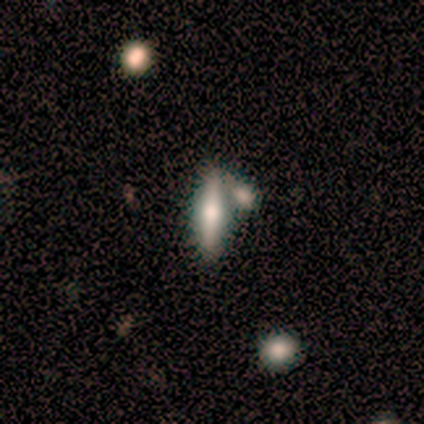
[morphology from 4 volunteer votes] Smooth or featured?
  - smooth: 50% *
  - featured or disk: 25%
  - star or artifact: 25%
How rounded?
  - cigar-shaped: 100% *
  - round: 0%
  - in between: 0%
Merging?
  - none: 100% *
  - minor disturbance: 0%
  - major disturbance: 0%
  - merger: 0%